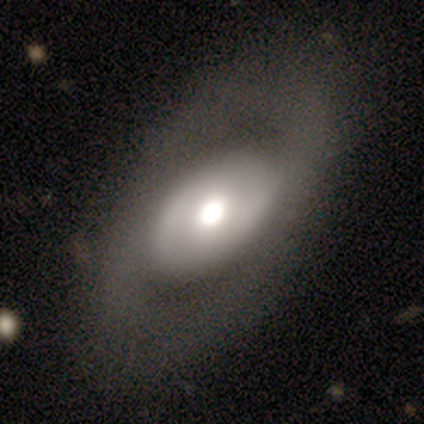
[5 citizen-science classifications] smooth 80%, featured or disk 20%, star or artifact 0%. Down the decision tree: how rounded — in between (100%); merging — none (80%).